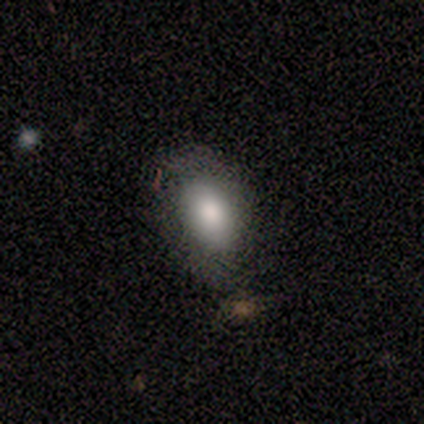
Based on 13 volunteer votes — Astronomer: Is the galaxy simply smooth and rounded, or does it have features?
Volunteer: smooth — 92%.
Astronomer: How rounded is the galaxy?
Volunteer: in between — 100%.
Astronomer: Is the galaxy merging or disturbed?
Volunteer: none — 58%.